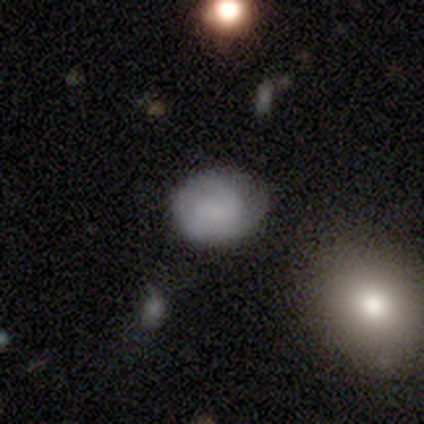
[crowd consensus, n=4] smooth-or-featured: smooth: 50% | featured or disk: 25% | star or artifact: 25%
  how-rounded: round: 50% (tied) | in between: 50% (tied) | cigar-shaped: 0%
  merging: none: 67% | minor disturbance: 33% | major disturbance: 0% | merger: 0%